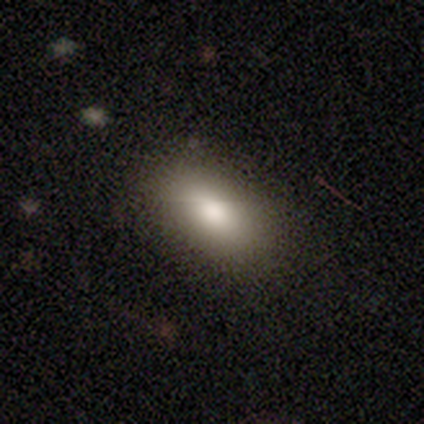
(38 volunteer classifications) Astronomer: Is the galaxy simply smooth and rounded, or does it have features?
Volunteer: smooth — 76%.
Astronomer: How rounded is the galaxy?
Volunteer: in between — 90%.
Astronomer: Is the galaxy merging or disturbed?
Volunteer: none — 82%.